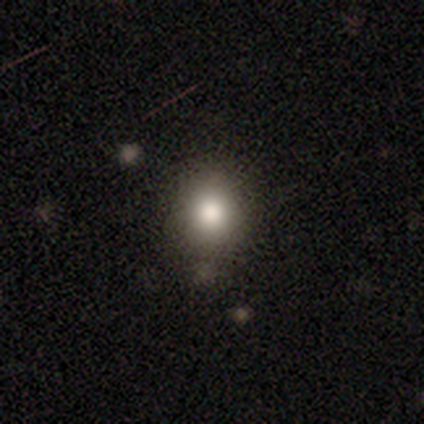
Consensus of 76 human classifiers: Overall: smooth (72%). How rounded: round (65%; in between 35%). Merging: none (84%).